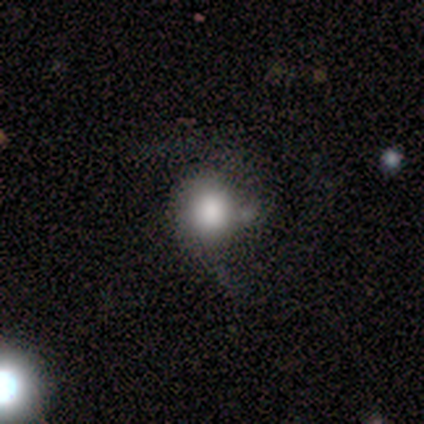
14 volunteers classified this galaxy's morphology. A smooth galaxy with no disk features (57%) that is round (75%).

Vote fractions:
- Smooth or featured? smooth: 57% / featured or disk: 43% / star or artifact: 0%
- How rounded? round: 75% / in between: 25% / cigar-shaped: 0%
- Merging? none: 43% / minor disturbance: 36% / major disturbance: 14% / merger: 7%